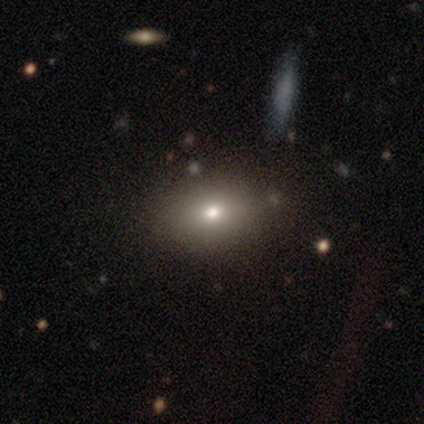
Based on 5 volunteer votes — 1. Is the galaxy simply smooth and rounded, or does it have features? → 80% smooth, 20% star or artifact, 0% featured or disk.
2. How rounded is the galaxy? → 75% in between, 25% round, 0% cigar-shaped.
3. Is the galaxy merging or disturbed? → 100% none, 0% minor disturbance, 0% major disturbance, 0% merger.